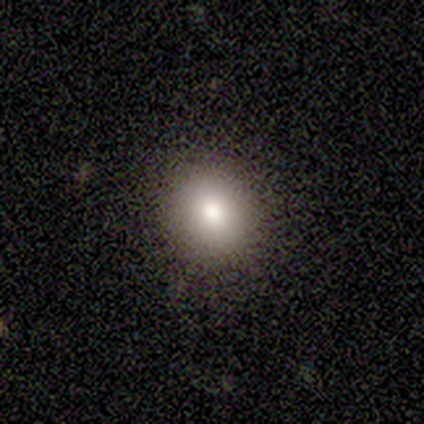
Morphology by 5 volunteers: Smooth or featured? 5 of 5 (100%) said smooth. How rounded? 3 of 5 (60%) said round. Merging? 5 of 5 (100%) said none.